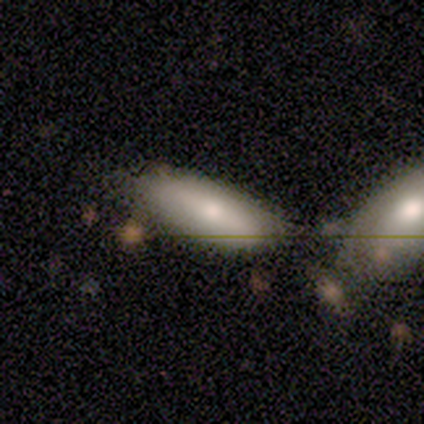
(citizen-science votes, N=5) Smooth or featured? smooth (60%)
How rounded? in between (67%)
Merging? none (60%)